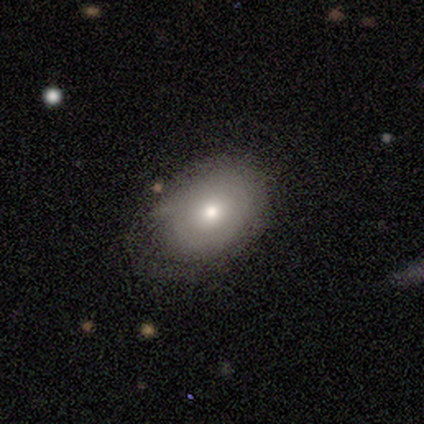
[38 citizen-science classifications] Smooth or featured?
  - smooth: 74% *
  - featured or disk: 21%
  - star or artifact: 5%
How rounded?
  - in between: 75% *
  - round: 25%
  - cigar-shaped: 0%
Merging?
  - none: 89% *
  - minor disturbance: 11%
  - major disturbance: 0%
  - merger: 0%